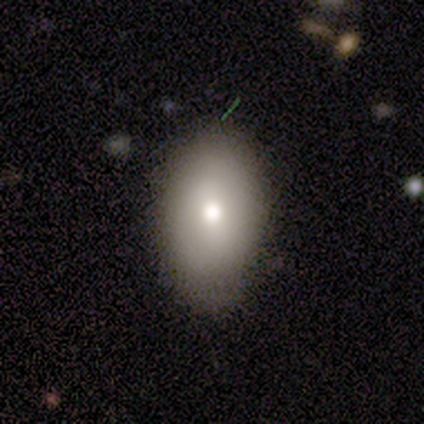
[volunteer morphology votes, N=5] Smooth or featured? 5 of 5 (100%) said smooth. How rounded? 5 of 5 (100%) said in between. Merging? 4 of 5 (80%) said none.